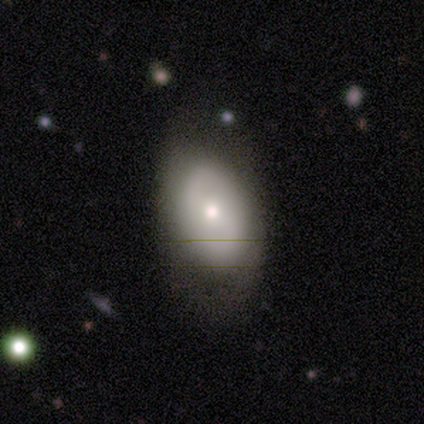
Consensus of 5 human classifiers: Volunteers were most divided on "merging": minor disturbance: 60%, none: 20%, major disturbance: 20%, merger: 0%. More confident: smooth or featured — smooth (100%); how rounded — in between (100%).